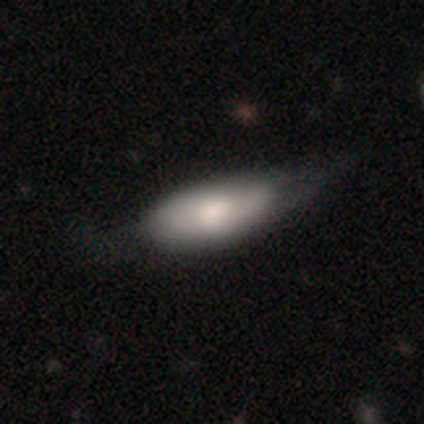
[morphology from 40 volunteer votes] Q: Smooth or featured?
A: smooth (52%); runner-up: featured or disk (38%)
Q: How rounded?
A: in between (86%); runner-up: cigar-shaped (14%)
Q: Merging?
A: minor disturbance (39%); runner-up: none (19%)